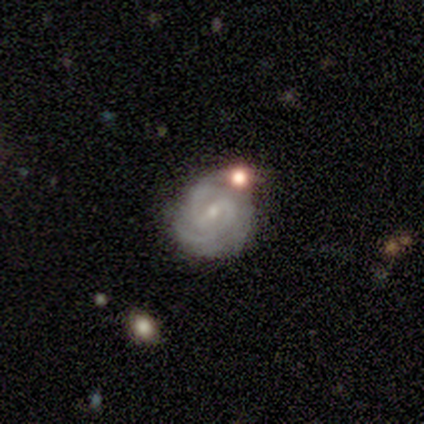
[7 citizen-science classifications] smooth_or_featured: featured or disk (p=1.00)
disk_edge_on: no (p=1.00)
bar: weak (p=0.57) [alt: no p=0.29]
has_spiral_arms: yes (p=1.00)
spiral_winding: tight (p=0.71) [alt: medium p=0.29]
spiral_arm_count: 2 (p=0.43) [alt: 3 p=0.29]
bulge_size: small (p=1.00)
merging: none (p=0.71) [alt: minor disturbance p=0.14]